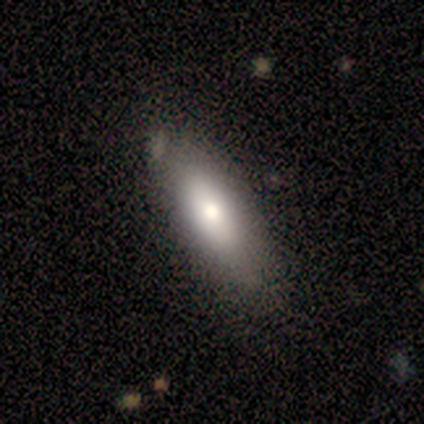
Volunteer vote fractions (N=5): smooth-or-featured: smooth: 100% | featured or disk: 0% | star or artifact: 0%
  how-rounded: in between: 80% | cigar-shaped: 20% | round: 0%
  merging: none: 100% | minor disturbance: 0% | major disturbance: 0% | merger: 0%